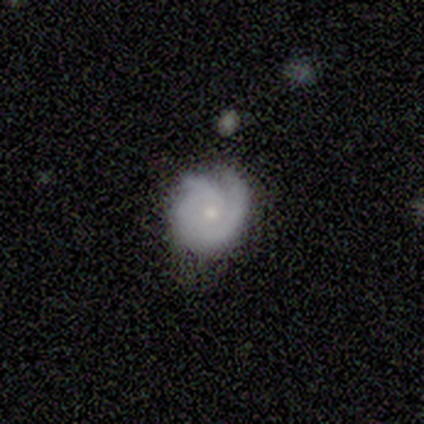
This appears to be a featured or disk galaxy (80%) with no bar (100%), 2 (50%, tied with can't tell) tight (75%) spiral arms (100%) and a small central bulge (75%). Merging: none (100%).